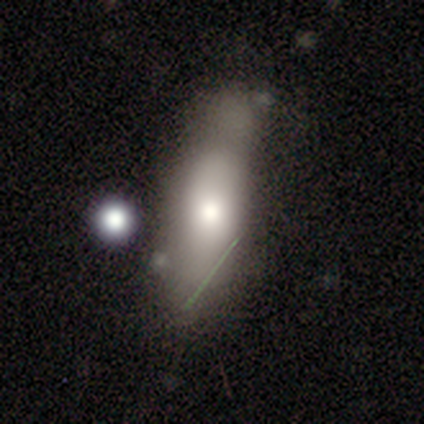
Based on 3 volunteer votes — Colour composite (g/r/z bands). It shows a smooth galaxy with no disk features (33%, tied with featured or disk and star or artifact) that is in between round and cigar-shaped (100%). Merging: none (50%, tied with minor disturbance).